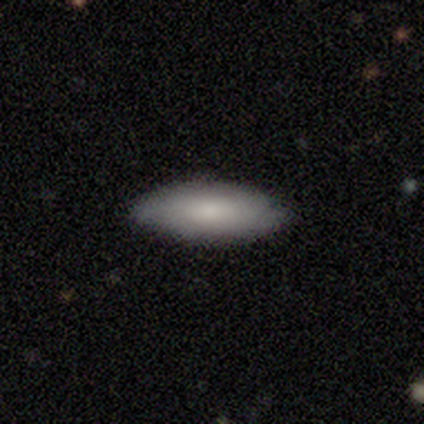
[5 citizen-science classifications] A smooth galaxy with no disk features (40%, tied with featured or disk) that is in between round and cigar-shaped (100%). Merging: none (75%).